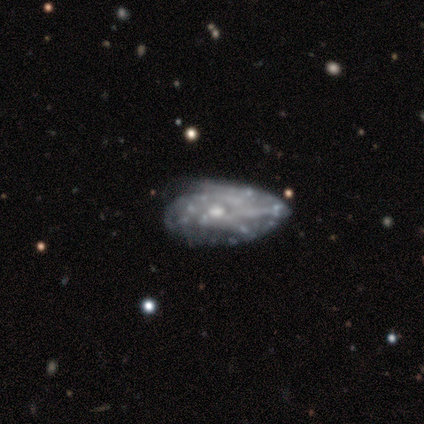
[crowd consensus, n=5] A featured or disk galaxy (100%) with no bar (60%), tight (67%) spiral arms (60%) and a small central bulge (80%). Merging: none (40%, tied with minor disturbance).